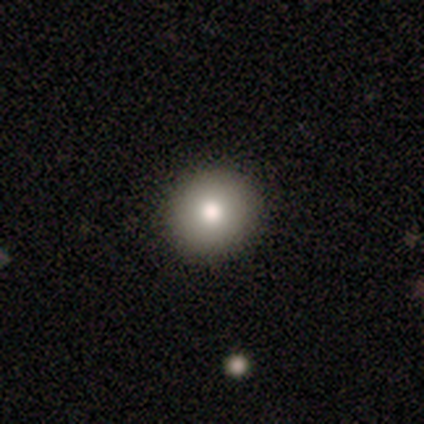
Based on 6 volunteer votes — This is clearly a smooth galaxy (83%). How rounded: clearly round (100%). Merging: clearly none (83%).